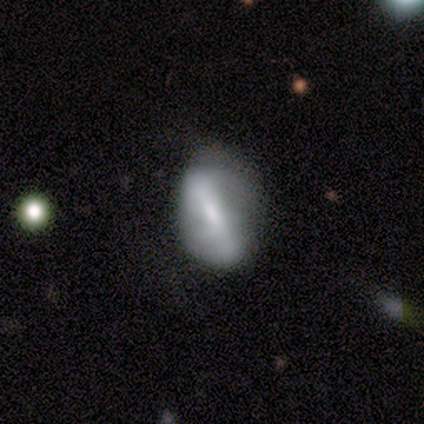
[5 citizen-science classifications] Smooth or featured: smooth — 60% (featured or disk — 40%)
How rounded: in between — 100%
Merging: none — 60% (minor disturbance — 40%)